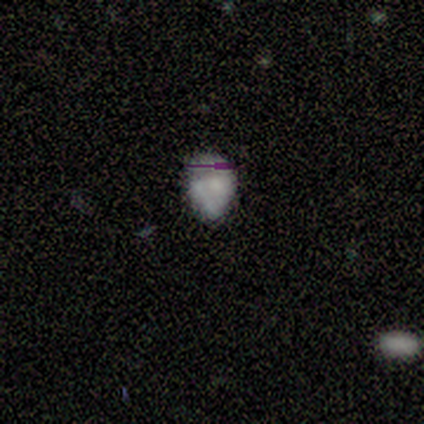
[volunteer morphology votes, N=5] Smooth or featured? featured or disk (100%)
Edge-on disk? no (100%)
Bar? no (60%)
Spiral arms? no (60%)
Bulge size? moderate (60%)
Merging? none (40%, tied with minor disturbance)